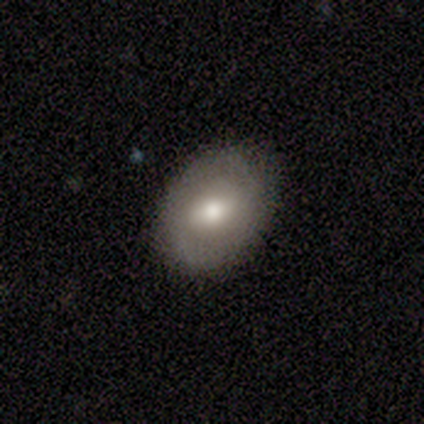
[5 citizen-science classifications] A featured or disk galaxy (60%) with a strong bar (67%), no spiral arms (100%) and a moderate central bulge (100%).

Vote fractions:
- Smooth or featured? featured or disk: 60% / smooth: 40% / star or artifact: 0%
- Edge-on disk? no: 100% / yes: 0%
- Bar? strong: 67% / no: 33% / weak: 0%
- Spiral arms? no: 100% / yes: 0%
- Bulge size? moderate: 100% / dominant: 0% / large: 0% / small: 0% / none: 0%
- Merging? none: 80% / minor disturbance: 20% / major disturbance: 0% / merger: 0%